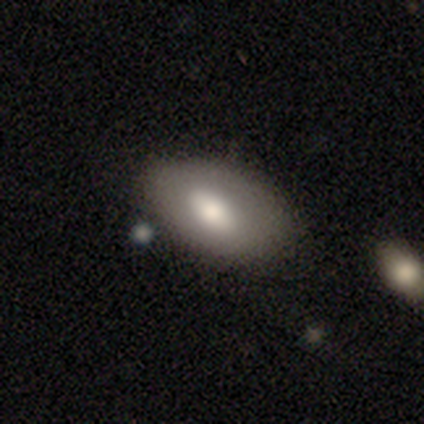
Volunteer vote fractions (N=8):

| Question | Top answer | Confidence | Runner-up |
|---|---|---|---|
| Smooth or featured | smooth | 100% | — |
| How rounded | in between | 88% | round (12%) |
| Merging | none | 88% | minor disturbance (12%) |